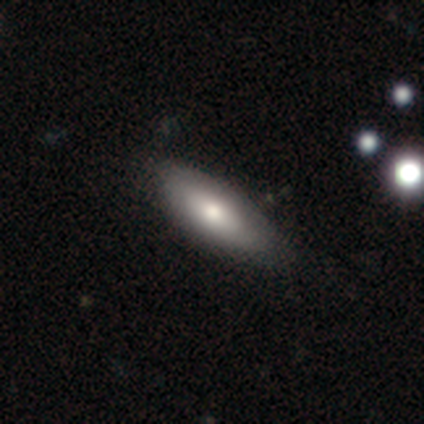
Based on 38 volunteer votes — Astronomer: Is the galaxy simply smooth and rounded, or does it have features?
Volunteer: smooth — 63%.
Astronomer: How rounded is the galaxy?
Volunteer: in between — 79%.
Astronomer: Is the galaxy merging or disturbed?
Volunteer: none — 71%.